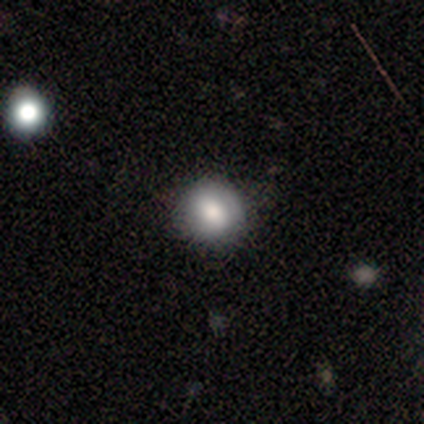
A smooth galaxy with no disk features (100%) that is round (75%).

Vote fractions:
- Smooth or featured? smooth: 100% / featured or disk: 0% / star or artifact: 0%
- How rounded? round: 75% / in between: 25% / cigar-shaped: 0%
- Merging? none: 100% / minor disturbance: 0% / major disturbance: 0% / merger: 0%